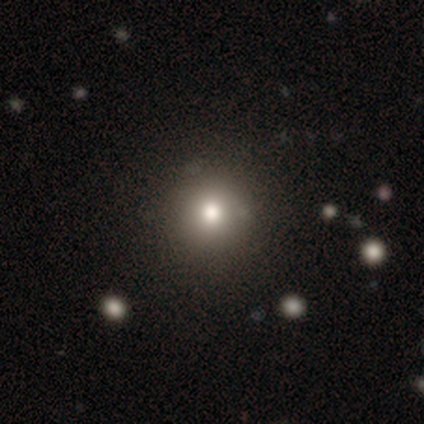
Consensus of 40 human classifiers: smooth-or-featured: smooth: 85% | featured or disk: 8% | star or artifact: 8%
  how-rounded: round: 91% | in between: 9% | cigar-shaped: 0%
  merging: none: 46% | minor disturbance: 11% | major disturbance: 3% | merger: 3%